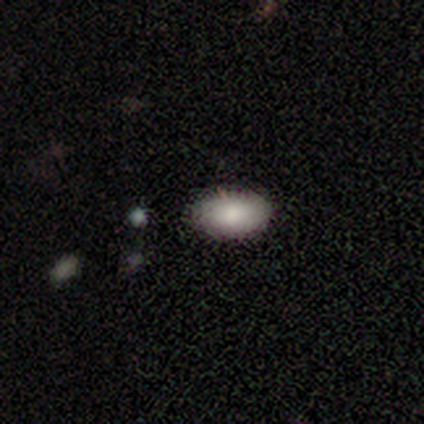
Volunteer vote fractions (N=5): This appears to be a smooth galaxy with no disk features (80%) that is in between round and cigar-shaped (100%). Merging: none (75%).